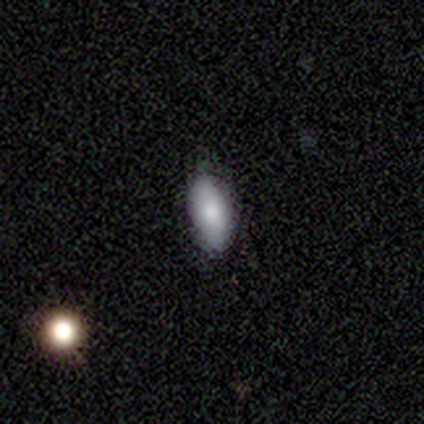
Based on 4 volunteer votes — Morphology: type=smooth (100%); roundness=in between (100%); merging=none (75%).